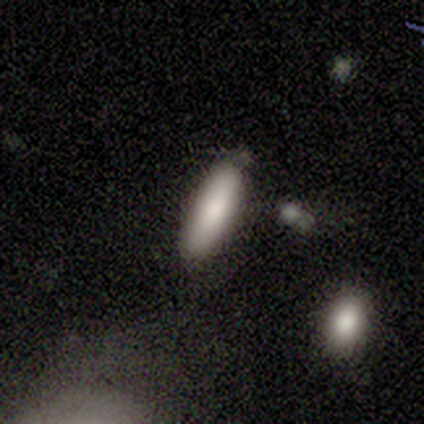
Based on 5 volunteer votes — Smooth or featured? smooth (100%)
How rounded? in between (60%)
Merging? none (60%)